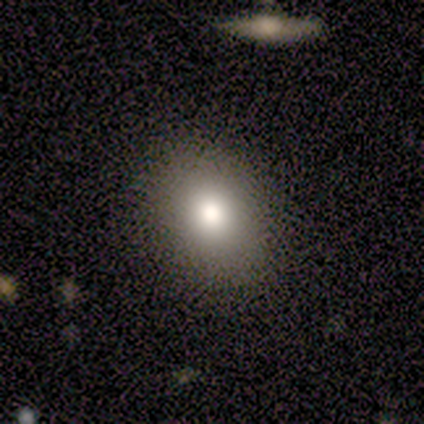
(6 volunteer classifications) This appears to be a smooth galaxy with no disk features (83%) that is round (80%). Merging: none (100%).